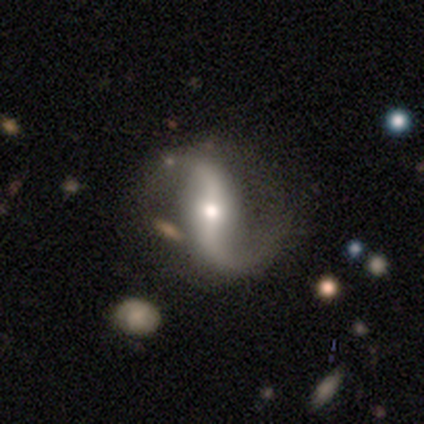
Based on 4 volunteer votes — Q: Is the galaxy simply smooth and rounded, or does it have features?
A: featured or disk — 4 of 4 (100%).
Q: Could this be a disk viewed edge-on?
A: no — 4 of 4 (100%).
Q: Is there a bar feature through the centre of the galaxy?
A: strong — 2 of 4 (50%, tied with no).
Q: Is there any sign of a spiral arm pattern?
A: yes — 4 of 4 (100%).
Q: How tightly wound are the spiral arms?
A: loose — 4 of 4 (100%).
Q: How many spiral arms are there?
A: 2 — 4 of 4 (100%).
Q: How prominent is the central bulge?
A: moderate — 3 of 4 (75%).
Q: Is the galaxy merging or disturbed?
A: minor disturbance — 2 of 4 (50%).